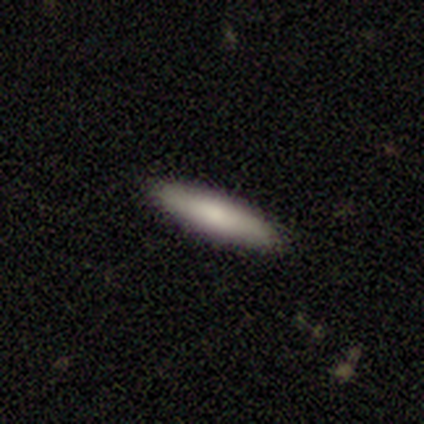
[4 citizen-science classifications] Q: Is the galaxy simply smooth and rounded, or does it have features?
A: smooth — 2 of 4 (50%).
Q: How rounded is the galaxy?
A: cigar-shaped — 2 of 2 (100%).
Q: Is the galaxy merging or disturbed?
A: none — 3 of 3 (100%).